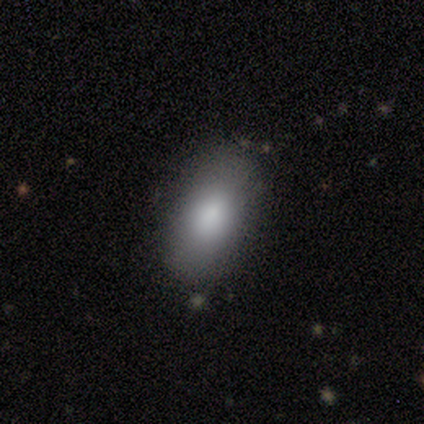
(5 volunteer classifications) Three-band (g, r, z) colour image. It shows a smooth galaxy with no disk features (100%) that is in between round and cigar-shaped (100%). Merging: none (100%).